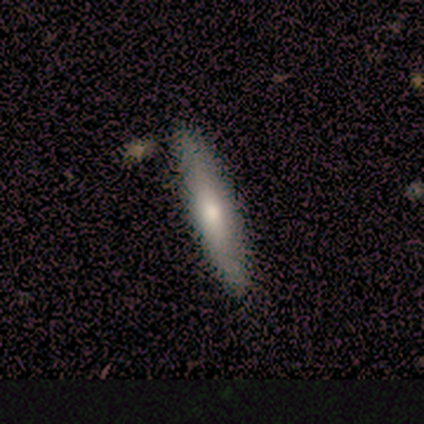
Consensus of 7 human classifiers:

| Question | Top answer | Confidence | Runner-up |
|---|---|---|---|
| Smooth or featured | smooth | 71% | featured or disk (29%) |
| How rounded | cigar-shaped | 100% | — |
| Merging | none | 86% | minor disturbance (14%) |